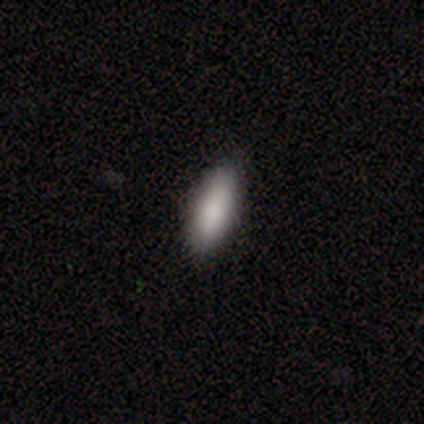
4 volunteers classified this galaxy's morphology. smooth 100%, featured or disk 0%, star or artifact 0%. Down the decision tree: how rounded — cigar-shaped (75%); merging — none (100%).